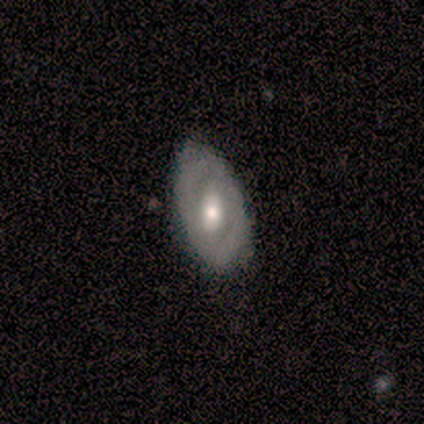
Smooth or featured? 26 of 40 (65%) said featured or disk. Edge-on disk? 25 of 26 (96%) said no. Bar? 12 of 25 (48%) said weak. Spiral arms? 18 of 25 (72%) said no. Bulge size? 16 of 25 (64%) said moderate. Merging? 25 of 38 (66%) said none.